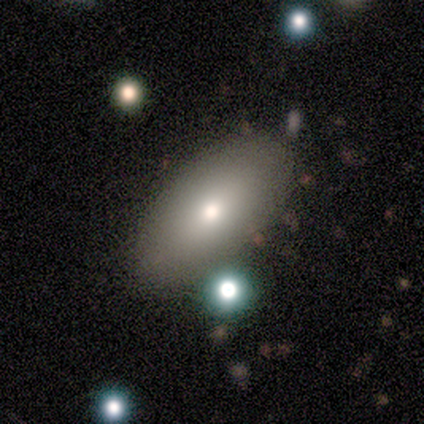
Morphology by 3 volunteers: A smooth galaxy with no disk features (33%, tied with featured or disk and star or artifact) that is in between round and cigar-shaped (100%). Merging: none (100%).